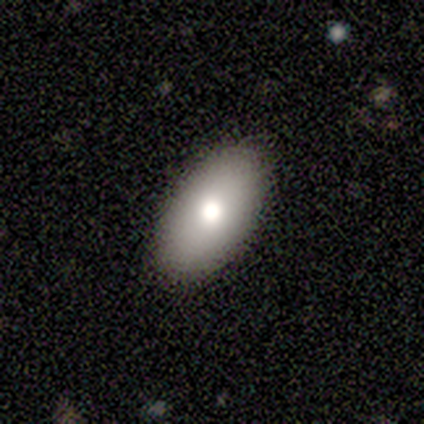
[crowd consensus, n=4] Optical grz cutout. It shows a smooth galaxy with no disk features (75%) that is in between round and cigar-shaped (100%). Merging: none (100%).